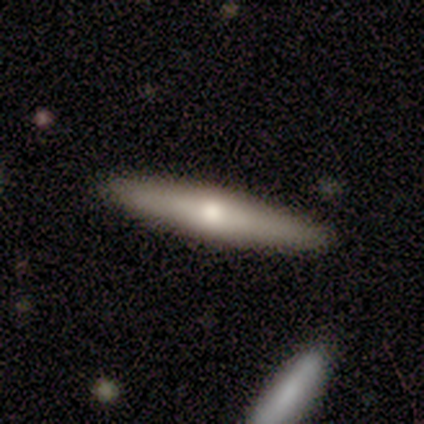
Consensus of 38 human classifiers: smooth-or-featured: smooth: 50% (tied) | featured or disk: 50% (tied) | star or artifact: 0%
  how-rounded: cigar-shaped: 84% | in between: 11% | round: 5%
  merging: none: 95% | minor disturbance: 5% | major disturbance: 0% | merger: 0%